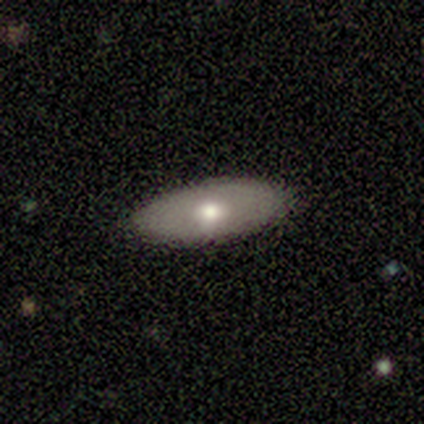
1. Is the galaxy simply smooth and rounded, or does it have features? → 75% smooth, 25% featured or disk, 0% star or artifact.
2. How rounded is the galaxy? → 100% in between, 0% round, 0% cigar-shaped.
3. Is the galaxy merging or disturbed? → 100% none, 0% minor disturbance, 0% major disturbance, 0% merger.